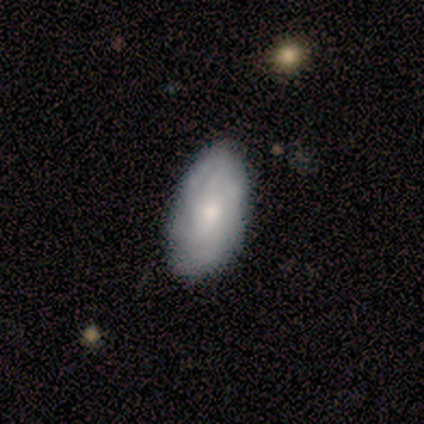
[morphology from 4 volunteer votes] A featured or disk galaxy (75%) with no bar (67%), medium (67%) spiral arms (100%) and a small central bulge (100%). Merging: none (100%).